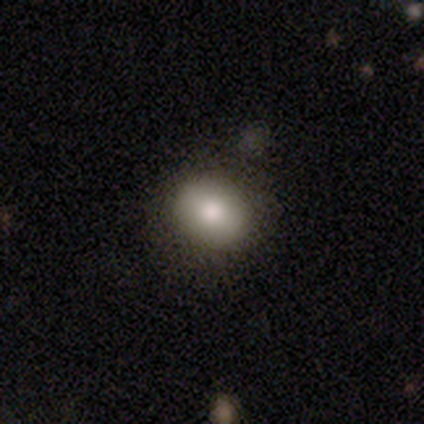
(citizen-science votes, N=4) Smooth or featured? smooth (75%)
How rounded? round (67%)
Merging? none (100%)